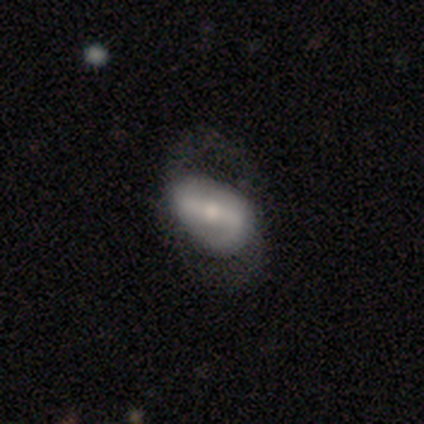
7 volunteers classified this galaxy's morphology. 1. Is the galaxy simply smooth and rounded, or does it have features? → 71% featured or disk, 29% smooth, 0% star or artifact.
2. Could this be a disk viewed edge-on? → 100% no, 0% yes.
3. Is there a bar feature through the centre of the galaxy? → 60% strong, 40% weak, 0% no.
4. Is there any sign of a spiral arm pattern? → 100% yes, 0% no.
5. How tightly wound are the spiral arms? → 60% medium, 20% tight, 20% loose.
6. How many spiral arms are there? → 100% 2, 0% 1, 0% 3, 0% 4, 0% more than 4, 0% can't tell.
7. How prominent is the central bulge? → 40% moderate (tied), 40% small (tied), 20% large, 0% dominant, 0% none.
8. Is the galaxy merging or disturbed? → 57% none, 43% major disturbance, 0% minor disturbance, 0% merger.